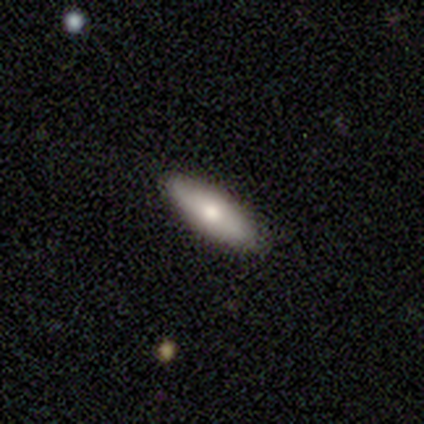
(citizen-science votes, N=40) This appears to be a smooth galaxy with no disk features (82%) that is in between round and cigar-shaped (58%). Merging: none (82%).